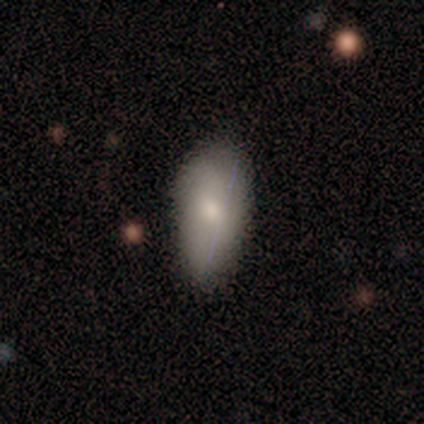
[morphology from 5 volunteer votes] Q: Smooth or featured?
A: smooth (80%); runner-up: featured or disk (20%)
Q: How rounded?
A: in between (100%)
Q: Merging?
A: none (60%); runner-up: minor disturbance (40%)